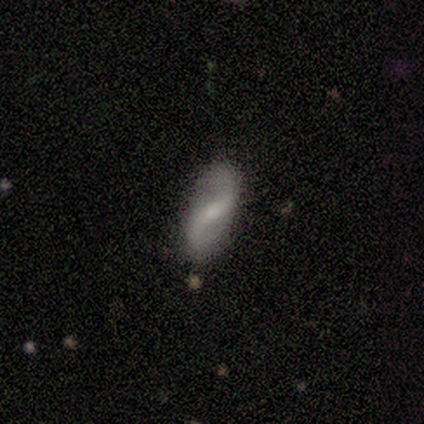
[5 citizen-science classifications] Q: Smooth or featured?
A: featured or disk (80%); runner-up: star or artifact (20%)
Q: Edge-on disk?
A: no (100%)
Q: Bar?
A: no (50%); runner-up: strong (25%)
Q: Spiral arms?
A: yes (75%); runner-up: no (25%)
Q: Spiral winding?
A: loose (100%)
Q: Spiral arm count?
A: 2 (100%)
Q: Bulge size?
A: moderate (50%); tied with: small (50%)
Q: Merging?
A: none (50%); tied with: minor disturbance (50%)